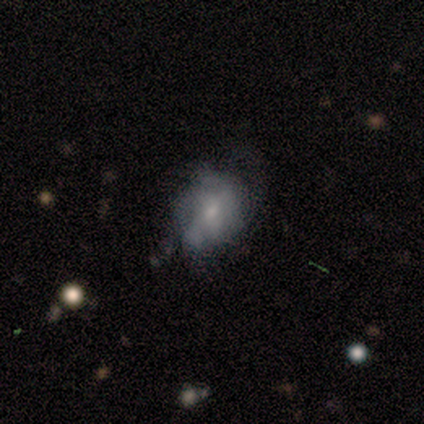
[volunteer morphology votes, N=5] type=featured or disk (100%); edge-on=no (100%); bar=weak (40%, tied with no); spiral arms=no (80%); bulge=small (80%); merging=minor disturbance (40%, tied with major disturbance).